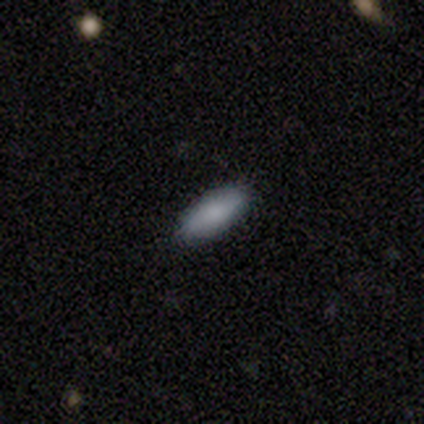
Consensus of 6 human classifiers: Overall: smooth (83%). How rounded: in between (80%). Merging: none (100%).